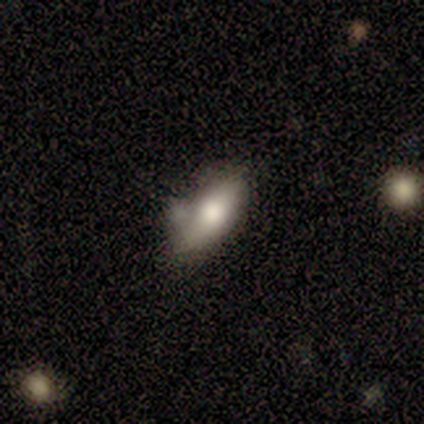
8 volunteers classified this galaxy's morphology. Overall: smooth (100%). How rounded: in between (75%). Merging: merger (50%; minor disturbance 38%).